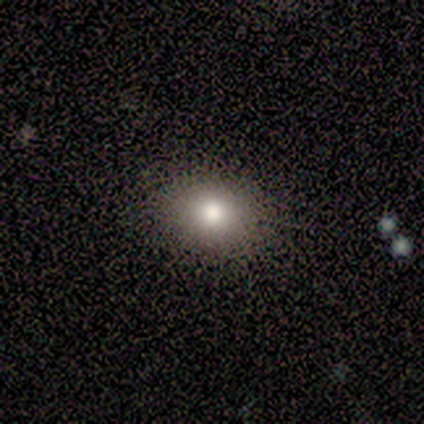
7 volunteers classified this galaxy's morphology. Smooth or featured?
  - smooth: 100% *
  - featured or disk: 0%
  - star or artifact: 0%
How rounded?
  - in between: 57% *
  - round: 43%
  - cigar-shaped: 0%
Merging?
  - none: 100% *
  - minor disturbance: 0%
  - major disturbance: 0%
  - merger: 0%